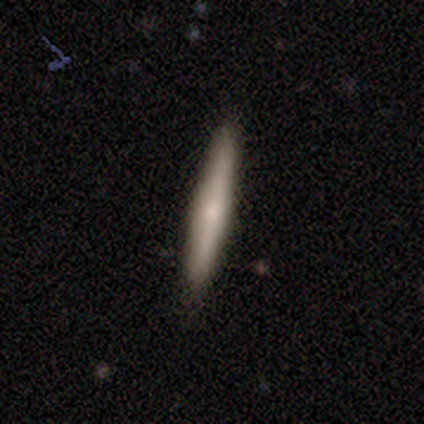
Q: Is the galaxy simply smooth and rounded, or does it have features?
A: smooth — 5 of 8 (62%).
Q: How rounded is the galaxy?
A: cigar-shaped — 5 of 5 (100%).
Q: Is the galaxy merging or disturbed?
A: none — 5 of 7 (71%).